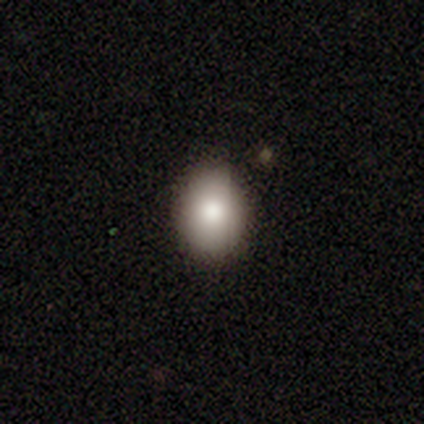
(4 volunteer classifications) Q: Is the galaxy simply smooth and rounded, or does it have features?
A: smooth — 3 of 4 (75%).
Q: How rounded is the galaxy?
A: round — 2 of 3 (67%).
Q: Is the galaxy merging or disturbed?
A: none — 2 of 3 (67%).